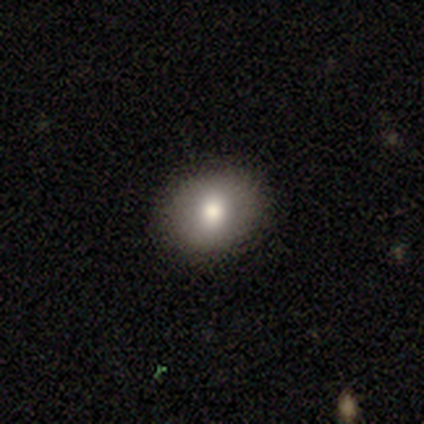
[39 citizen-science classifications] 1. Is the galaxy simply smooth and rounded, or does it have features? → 69% smooth, 15% featured or disk, 15% star or artifact.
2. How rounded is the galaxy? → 63% round, 33% in between, 4% cigar-shaped.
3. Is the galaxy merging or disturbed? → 91% none, 9% minor disturbance, 0% major disturbance, 0% merger.